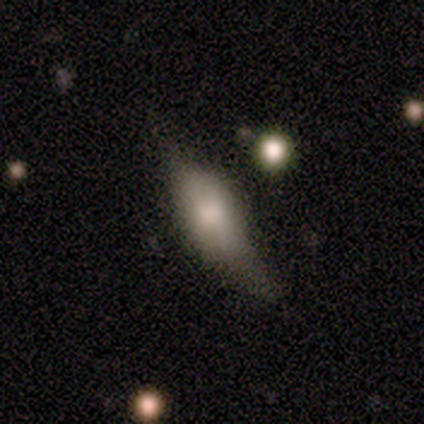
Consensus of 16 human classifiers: Smooth or featured?
  - smooth: 75% *
  - featured or disk: 25%
  - star or artifact: 0%
How rounded?
  - in between: 67% *
  - cigar-shaped: 33%
  - round: 0%
Merging?
  - none: 56% *
  - minor disturbance: 38%
  - merger: 6%
  - major disturbance: 0%